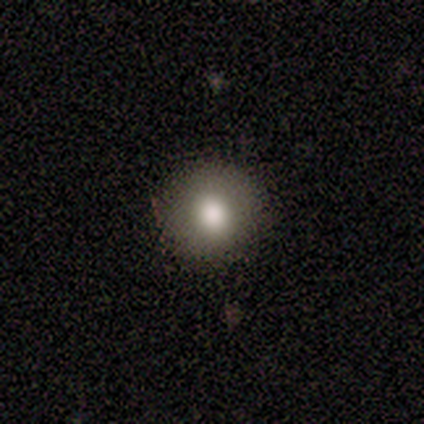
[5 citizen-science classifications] Morphology: type=smooth (80%); roundness=round (100%); merging=none (100%).